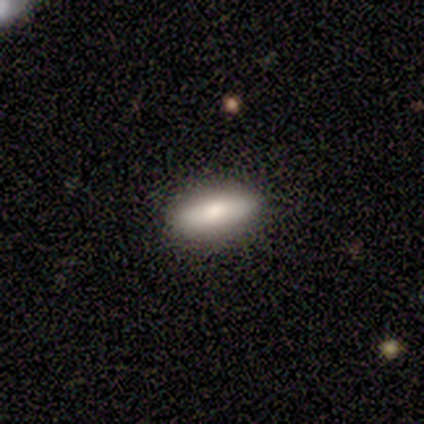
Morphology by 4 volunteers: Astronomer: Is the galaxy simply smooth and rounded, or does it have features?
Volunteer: featured or disk — 75%.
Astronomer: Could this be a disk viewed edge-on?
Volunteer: no — 100%.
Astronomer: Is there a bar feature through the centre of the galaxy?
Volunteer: no — 67%.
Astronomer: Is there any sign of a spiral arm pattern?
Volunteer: no — 100%.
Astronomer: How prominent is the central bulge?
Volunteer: moderate — 100%.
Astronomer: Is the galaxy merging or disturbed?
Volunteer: none — 100%.